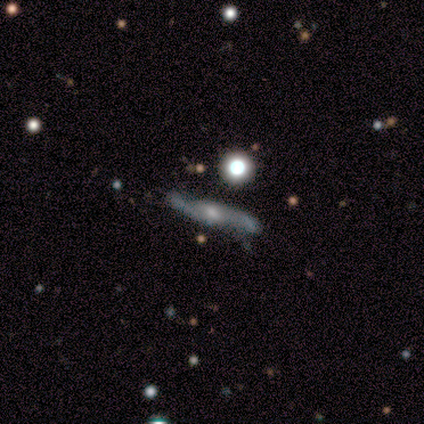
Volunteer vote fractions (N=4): smooth-or-featured: featured or disk: 100% | smooth: 0% | star or artifact: 0%
  disk-edge-on: yes: 50% (tied) | no: 50% (tied)
    edge-on-bulge: rounded: 100% | boxy: 0% | none: 0%
  merging: none: 100% | minor disturbance: 0% | major disturbance: 0% | merger: 0%